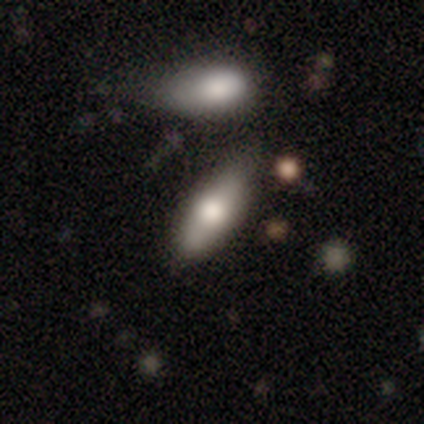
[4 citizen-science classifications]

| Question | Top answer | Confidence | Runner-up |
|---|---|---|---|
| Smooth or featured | smooth | 75% | featured or disk (25%) |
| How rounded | in between | 67% | cigar-shaped (33%) |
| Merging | none | 75% | minor disturbance (25%) |